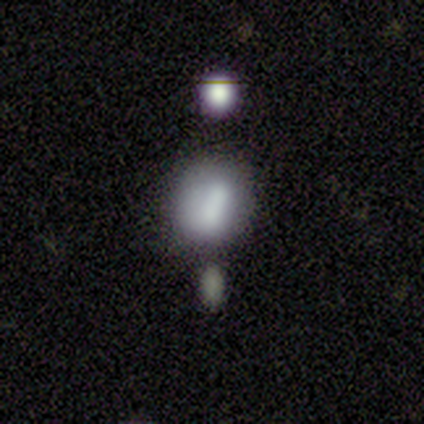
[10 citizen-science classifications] Smooth or featured?
  - smooth: 80% *
  - star or artifact: 20%
  - featured or disk: 0%
How rounded?
  - round: 50% *
  - in between: 38%
  - cigar-shaped: 12%
Merging?
  - none: 50% *
  - minor disturbance: 38%
  - merger: 12%
  - major disturbance: 0%